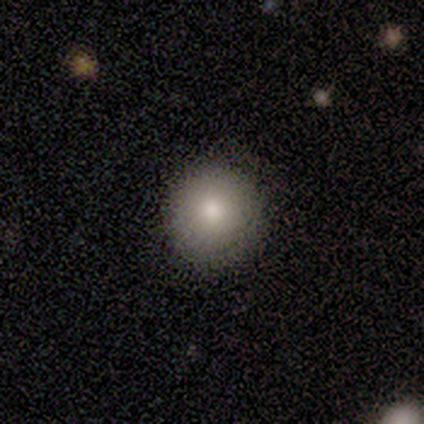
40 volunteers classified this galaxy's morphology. type=smooth (78%); roundness=round (97%); merging=none (92%).